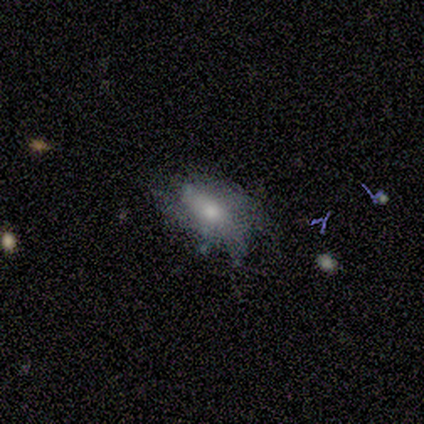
smooth_or_featured: featured or disk (p=0.80) [alt: smooth p=0.20]
disk_edge_on: no (p=1.00)
bar: weak (p=0.75) [alt: no p=0.25]
has_spiral_arms: yes (p=0.50) [tied with: no p=0.50]
spiral_winding: loose (p=1.00)
spiral_arm_count: can't tell (p=1.00)
bulge_size: small (p=0.50) [alt: large p=0.25]
merging: minor disturbance (p=0.40) [tied with: major disturbance p=0.40]